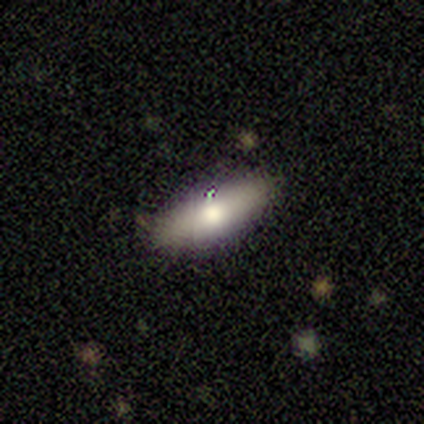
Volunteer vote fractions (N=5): Smooth or featured? 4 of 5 (80%) said smooth. How rounded? 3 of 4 (75%) said in between. Merging? 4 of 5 (80%) said none.